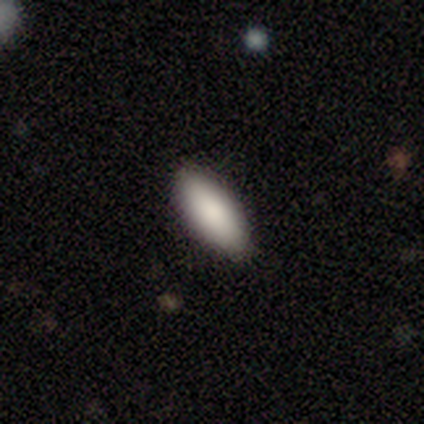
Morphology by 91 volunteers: This is clearly a smooth galaxy (87%). How rounded: likely in between (72%). Merging: clearly none (92%).